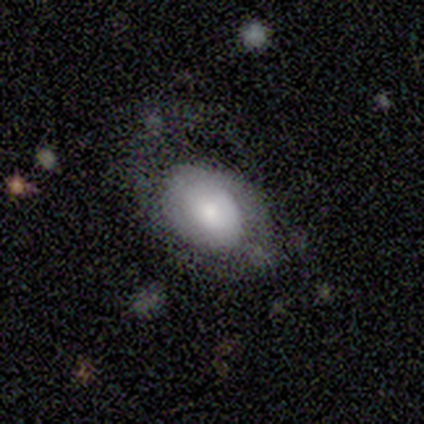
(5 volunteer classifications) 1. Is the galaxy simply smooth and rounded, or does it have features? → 60% featured or disk, 40% smooth, 0% star or artifact.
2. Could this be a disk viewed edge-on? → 100% no, 0% yes.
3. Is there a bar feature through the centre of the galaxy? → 100% no, 0% strong, 0% weak.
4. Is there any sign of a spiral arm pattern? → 67% yes, 33% no.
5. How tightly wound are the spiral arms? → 50% tight (tied), 50% medium (tied), 0% loose.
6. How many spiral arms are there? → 100% 1, 0% 2, 0% 3, 0% 4, 0% more than 4, 0% can't tell.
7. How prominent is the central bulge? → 67% small, 33% moderate, 0% dominant, 0% large, 0% none.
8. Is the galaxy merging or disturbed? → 60% major disturbance, 20% none, 20% minor disturbance, 0% merger.